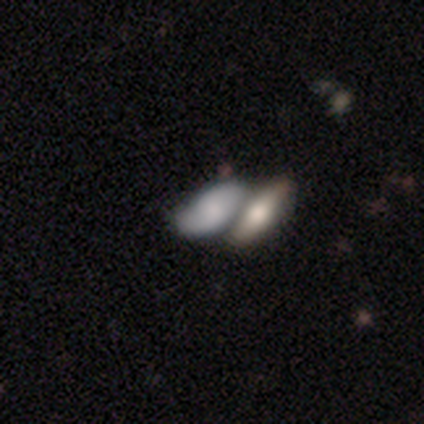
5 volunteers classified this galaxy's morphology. This is likely a featured or disk galaxy (60%). It is likely not viewed edge-on (67%). Bar: possibly weak (50%, tied with no). Spiral arm pattern: possibly yes (50%, tied with no). Spiral arm count: clearly 2 (100%). Spiral winding: clearly medium (100%). Central bulge: possibly moderate (50%, tied with none). Merging: likely merger (60%).